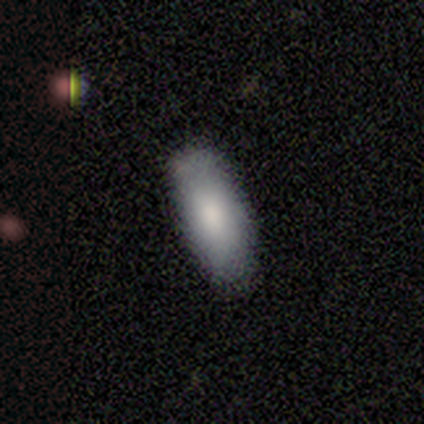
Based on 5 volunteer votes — Overall: smooth (100%). How rounded: in between (100%). Merging: none (60%; minor disturbance 40%).